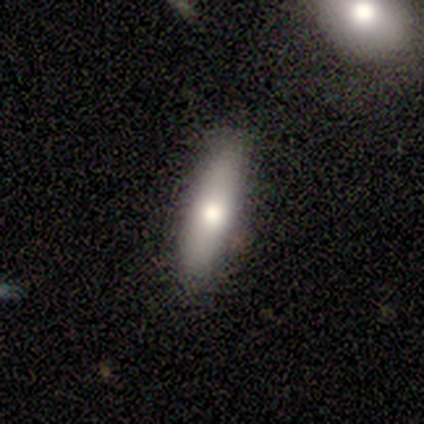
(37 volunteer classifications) smooth 65%, featured or disk 30%, star or artifact 5%. Down the decision tree: how rounded — cigar-shaped (58%); merging — none (86%).